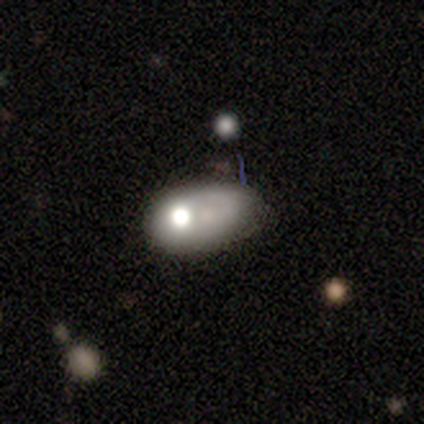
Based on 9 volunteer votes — Morphology: type=smooth (67%); roundness=in between (83%); merging=none (25%, tied with minor disturbance, major disturbance and merger).